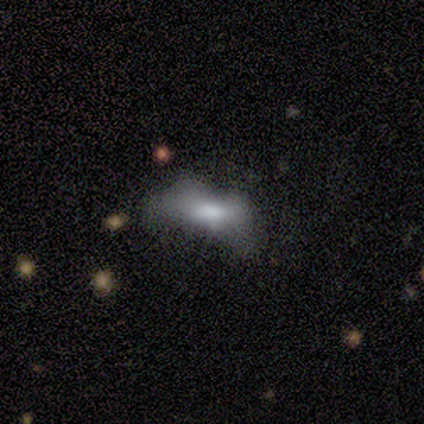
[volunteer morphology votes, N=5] Overall: smooth (60%; featured or disk 20%). How rounded: in between (100%). Merging: none (75%).